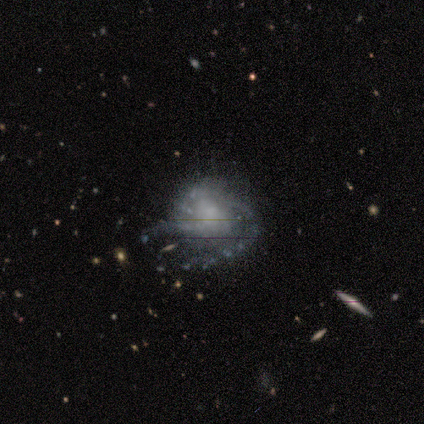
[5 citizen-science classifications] A featured or disk galaxy (100%) with no bar (60%), 2 (67%) medium (100%) spiral arms (60%) and a small central bulge (60%). Merging: none (80%).